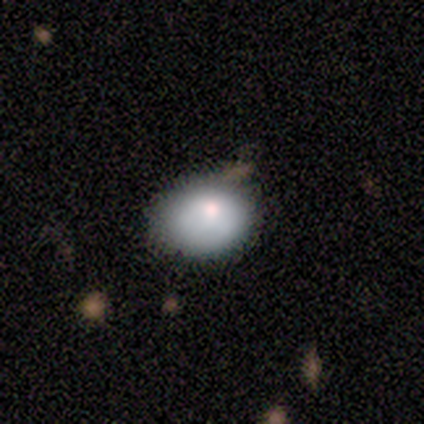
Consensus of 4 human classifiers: Smooth or featured? 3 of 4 (75%) said smooth. How rounded? 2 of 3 (67%) said in between. Merging? 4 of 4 (100%) said none.